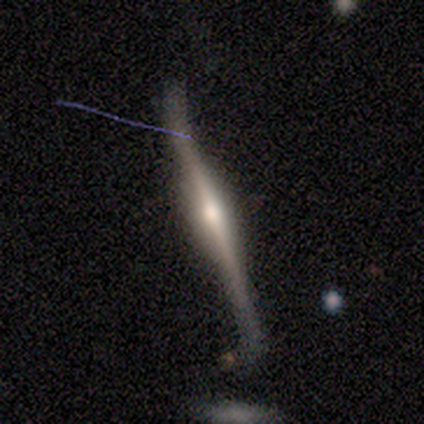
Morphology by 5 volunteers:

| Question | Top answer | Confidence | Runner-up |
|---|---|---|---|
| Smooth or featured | featured or disk | 60% | smooth (40%) |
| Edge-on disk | no | 67% | yes (33%) |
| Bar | strong | 50% | tied: no (50%) |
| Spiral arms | yes | 50% | tied: no (50%) |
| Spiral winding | loose | 100% | — |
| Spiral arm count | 2 | 100% | — |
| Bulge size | dominant | 50% | tied: large (50%) |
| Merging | none | 60% | minor disturbance (20%) |